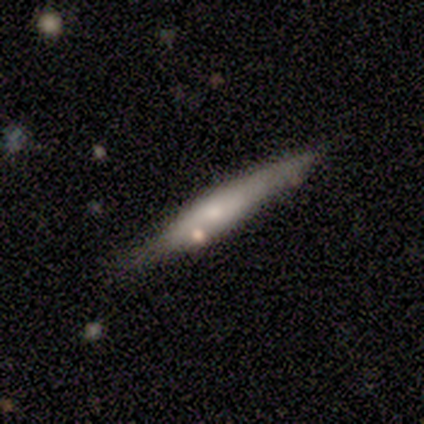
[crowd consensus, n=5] Smooth or featured? smooth (60%)
How rounded? cigar-shaped (100%)
Merging? none (80%)